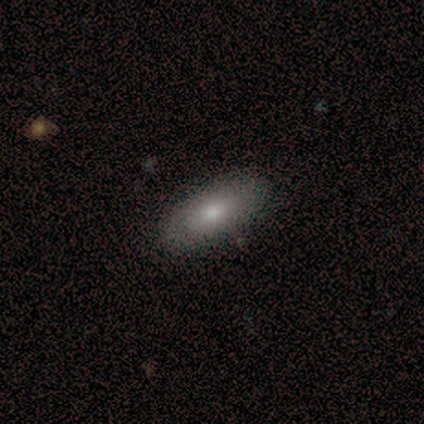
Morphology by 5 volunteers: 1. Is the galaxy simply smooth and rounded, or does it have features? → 100% smooth, 0% featured or disk, 0% star or artifact.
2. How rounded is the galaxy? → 100% in between, 0% round, 0% cigar-shaped.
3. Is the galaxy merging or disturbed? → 60% none, 20% minor disturbance, 20% merger, 0% major disturbance.